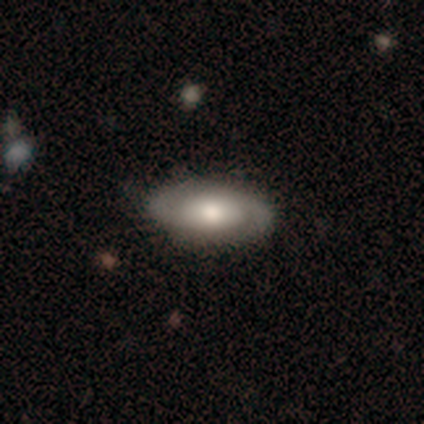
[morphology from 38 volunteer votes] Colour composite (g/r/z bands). It shows a featured or disk galaxy (53%) with no bar (82%), 2 (92%) tight (46%) spiral arms (76%) and a moderate central bulge (65%). Merging: none (47%).